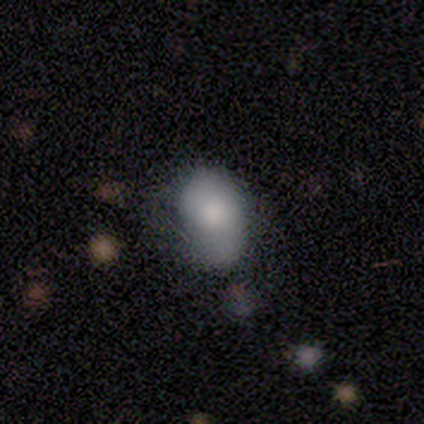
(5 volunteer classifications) Q: Smooth or featured?
A: smooth (80%); runner-up: star or artifact (20%)
Q: How rounded?
A: in between (75%); runner-up: round (25%)
Q: Merging?
A: none (25%); tied with: minor disturbance (25%); major disturbance (25%); merger (25%)